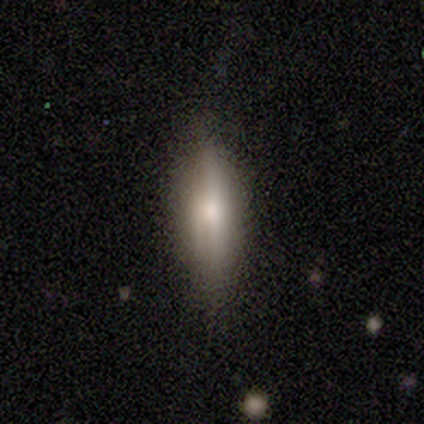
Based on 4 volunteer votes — Morphology: type=smooth (75%); roundness=cigar-shaped (100%); merging=none (75%).